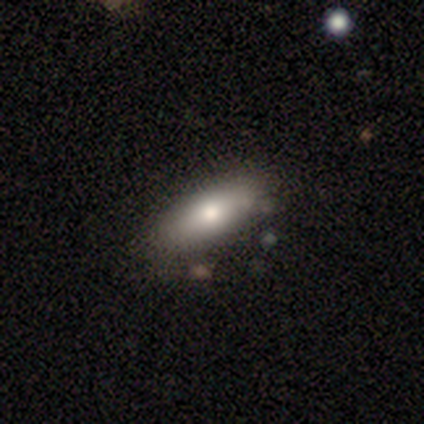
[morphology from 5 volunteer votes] type=featured or disk (60%); edge-on=yes (67%); edge-on bulge=none (50%, tied with rounded); merging=none (50%, tied with minor disturbance).